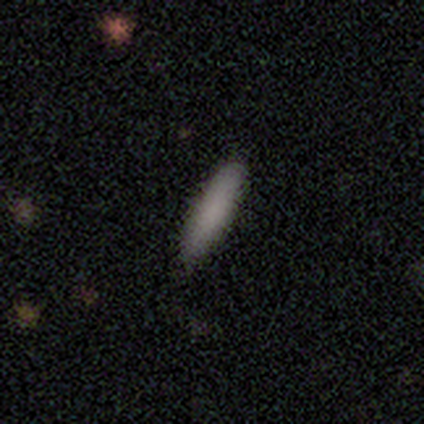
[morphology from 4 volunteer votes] Smooth or featured: smooth — 75% (featured or disk — 25%)
How rounded: cigar-shaped — 100%
Merging: none — 50% (minor disturbance — 25%)